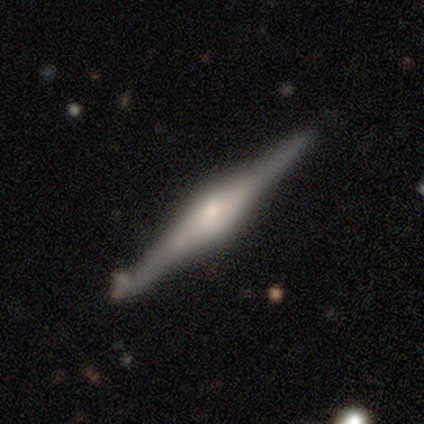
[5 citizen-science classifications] Smooth or featured? featured or disk (100%)
Edge-on disk? yes (80%)
Edge-on bulge? rounded (100%)
Merging? none (80%)